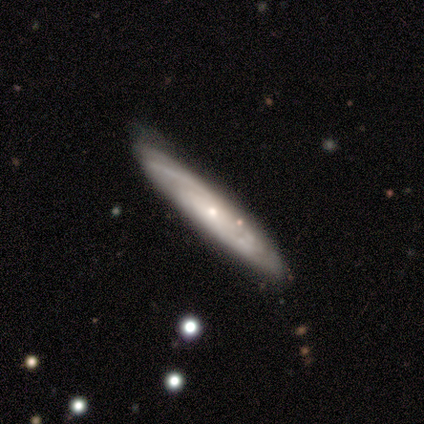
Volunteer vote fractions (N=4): Overall: featured or disk (75%). Edge-on disk: yes (67%; no 33%). Edge-on bulge: none (50%, tied with rounded). Merging: none (75%).